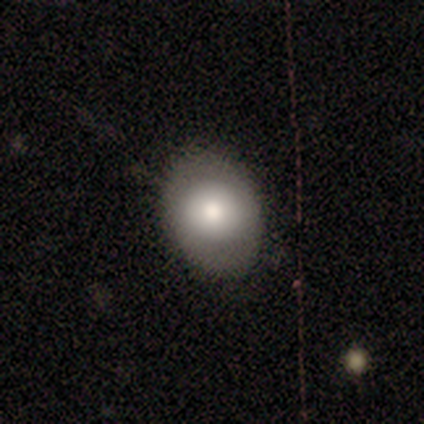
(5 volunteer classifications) featured or disk 60%, smooth 40%, star or artifact 0%. Down the decision tree: edge-on disk — no (100%); bar — no (100%); spiral arms — yes (67%); spiral arm count — 2 (100%); spiral winding — medium (50%, tied with loose); bulge size — moderate (67%); merging — none (80%).